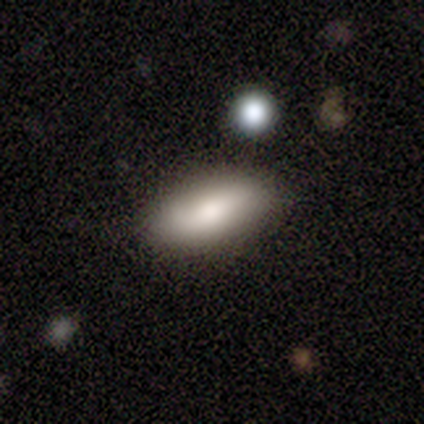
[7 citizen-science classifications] Smooth or featured: smooth — 86% (star or artifact — 14%)
How rounded: in between — 83% (cigar-shaped — 17%)
Merging: none — 67% (minor disturbance — 33%)